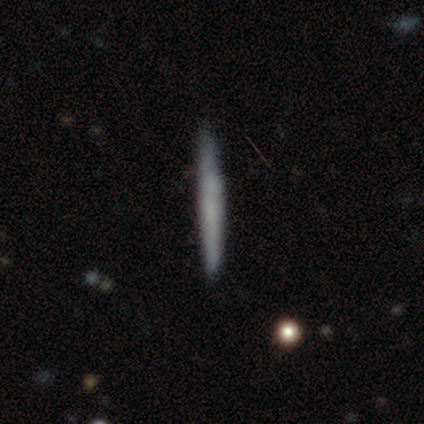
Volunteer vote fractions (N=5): smooth 80%, star or artifact 20%, featured or disk 0%. Down the decision tree: how rounded — cigar-shaped (100%); merging — none (75%).